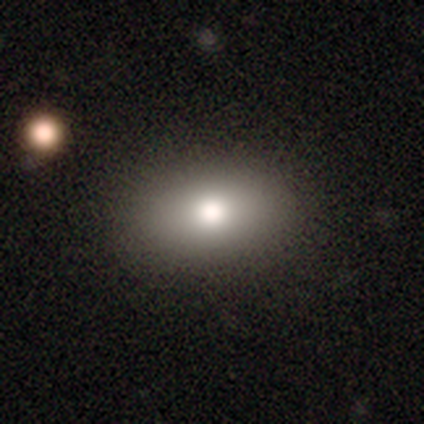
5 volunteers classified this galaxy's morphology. This appears to be a smooth galaxy with no disk features (80%) that is in between round and cigar-shaped (100%). Merging: none (100%).